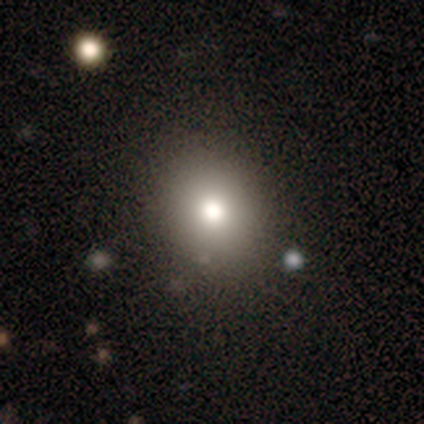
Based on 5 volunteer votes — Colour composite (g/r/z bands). It shows a smooth galaxy with no disk features (60%) that is round (100%). Merging: none (100%).